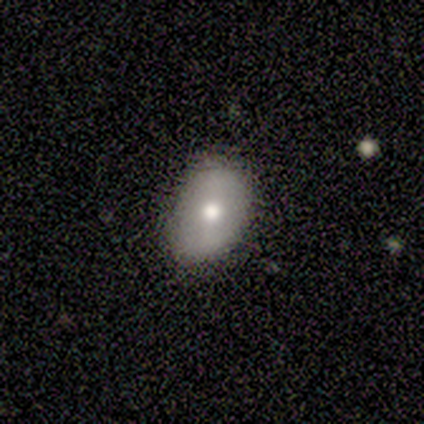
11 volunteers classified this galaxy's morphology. Overall: smooth (64%; featured or disk 27%). How rounded: in between (100%). Merging: none (60%; minor disturbance 20%).